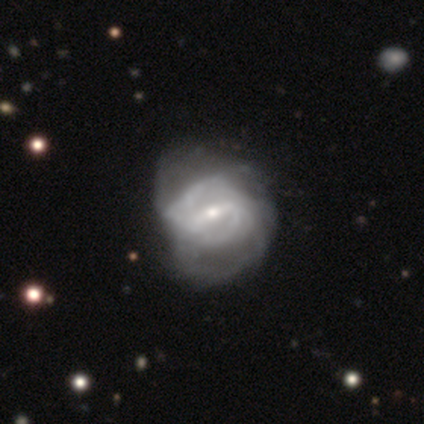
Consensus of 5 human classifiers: smooth_or_featured: featured or disk (p=1.00)
disk_edge_on: no (p=1.00)
bar: weak (p=0.60) [alt: strong p=0.40]
has_spiral_arms: yes (p=0.80) [alt: no p=0.20]
spiral_winding: medium (p=0.50) [alt: tight p=0.25]
spiral_arm_count: 2 (p=1.00)
bulge_size: moderate (p=1.00)
merging: minor disturbance (p=0.80) [alt: none p=0.20]